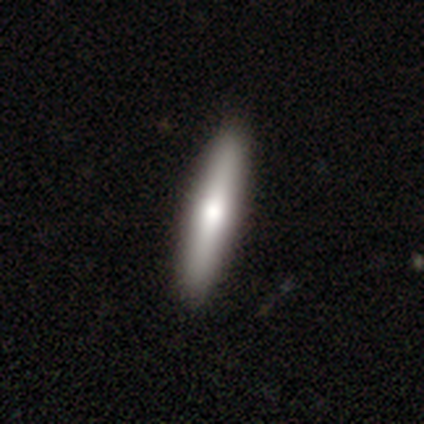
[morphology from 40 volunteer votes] This is likely a smooth galaxy (65%). How rounded: clearly cigar-shaped (92%). Merging: clearly none (95%).